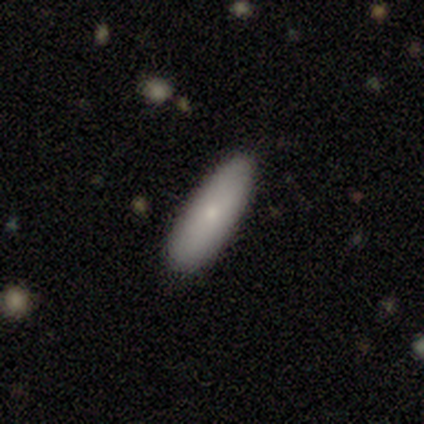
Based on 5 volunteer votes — A smooth galaxy with no disk features (100%) that is in between round and cigar-shaped (60%). Merging: none (80%).